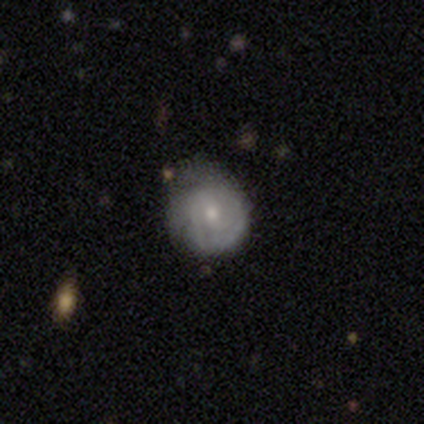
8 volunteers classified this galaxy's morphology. Overall: featured or disk (62%; smooth 38%). Edge-on disk: no (100%). Bar: no (60%; strong 20%). Spiral arms: yes (100%). Spiral arm count: 3 (40%, tied with can't tell). Spiral winding: tight (100%). Bulge size: small (60%; moderate 40%). Merging: none (50%; minor disturbance 38%).